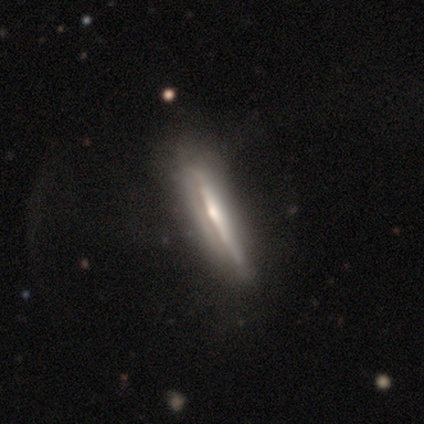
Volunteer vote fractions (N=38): Volunteers were most divided on "merging": none: 38%, minor disturbance: 22%, major disturbance: 3%, merger: 3%. More confident: edge-on disk — yes (91%); smooth or featured — featured or disk (84%); edge-on bulge — rounded (59%).